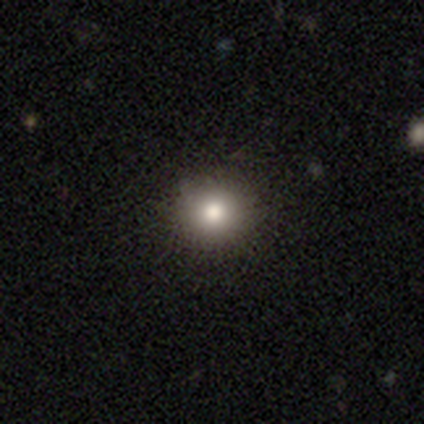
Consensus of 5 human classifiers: Smooth or featured? smooth (80%)
How rounded? round (100%)
Merging? none (100%)